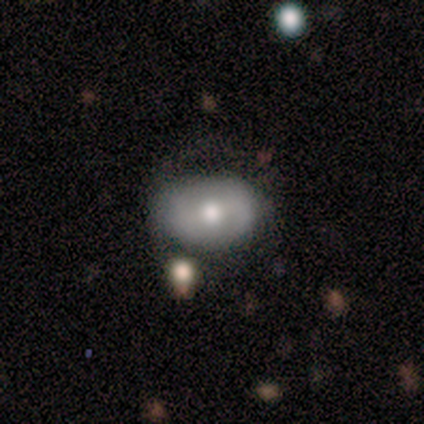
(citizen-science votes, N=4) Smooth or featured: smooth — 75% (featured or disk — 25%)
How rounded: round — 67% (in between — 33%)
Merging: none — 75% (major disturbance — 25%)